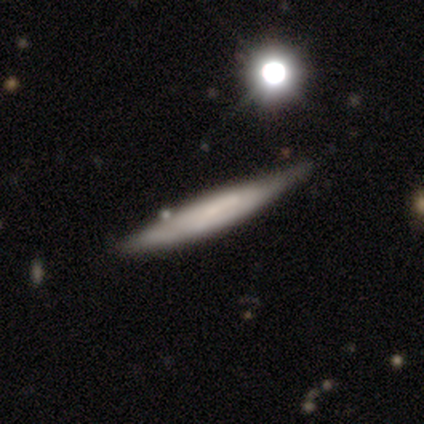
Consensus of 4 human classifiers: Morphology: type=smooth (50%, tied with featured or disk); roundness=in between (50%, tied with cigar-shaped); merging=none (50%).